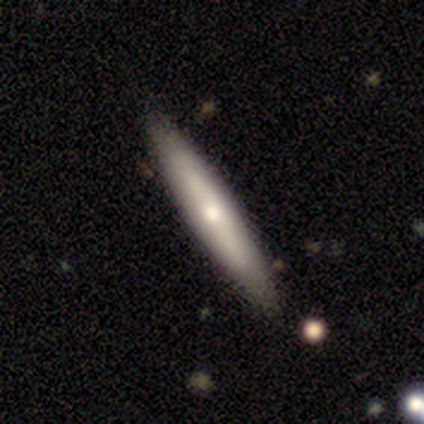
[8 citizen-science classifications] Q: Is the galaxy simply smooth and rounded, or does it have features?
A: smooth — 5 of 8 (62%).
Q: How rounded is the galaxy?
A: cigar-shaped — 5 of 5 (100%).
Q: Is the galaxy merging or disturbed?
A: none — 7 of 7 (100%).